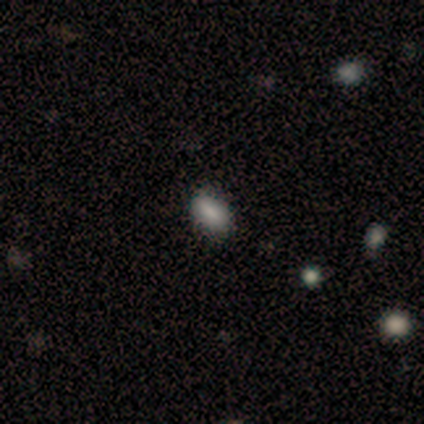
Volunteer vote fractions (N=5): Smooth or featured: smooth — 80% (featured or disk — 20%)
How rounded: in between — 100%
Merging: none — 100%